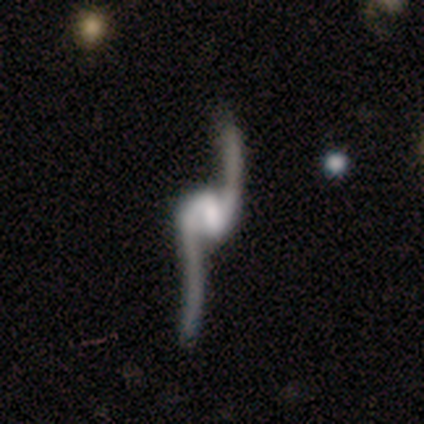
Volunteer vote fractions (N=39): Smooth or featured? 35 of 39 (90%) said featured or disk. Edge-on disk? 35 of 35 (100%) said no. Bar? 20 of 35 (57%) said weak. Spiral arms? 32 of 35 (91%) said yes. Spiral winding? 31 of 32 (97%) said loose. Spiral arm count? 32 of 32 (100%) said 2. Bulge size? 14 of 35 (40%) said moderate. Merging? 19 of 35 (54%) said none.